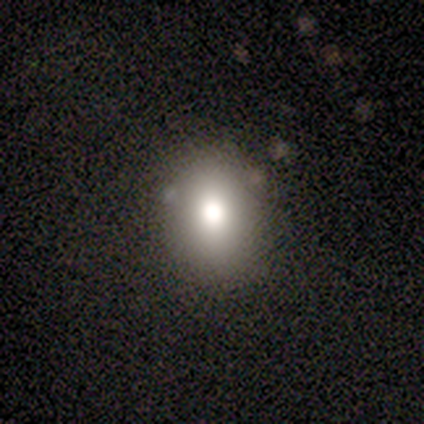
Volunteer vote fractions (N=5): smooth_or_featured: smooth (p=0.80) [alt: featured or disk p=0.20]
how_rounded: round (p=0.75) [alt: in between p=0.25]
merging: none (p=0.60) [alt: minor disturbance p=0.20]